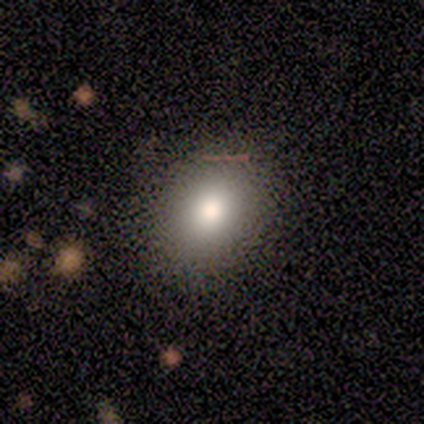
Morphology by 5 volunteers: Smooth or featured: smooth — 60% (featured or disk — 40%)
How rounded: in between — 67% (round — 33%)
Merging: none — 80% (minor disturbance — 20%)